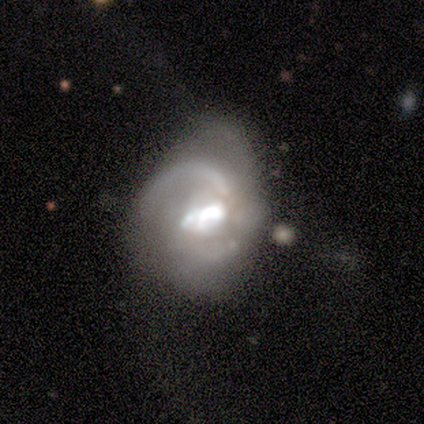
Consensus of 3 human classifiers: This appears to be a featured or disk galaxy (67%) with no bar (100%), 1 (50%, tied with can't tell) tight (50%, tied with loose) spiral arms (100%) and a dominant central bulge (50%, tied with small). Merging: minor disturbance (50%, tied with major disturbance).